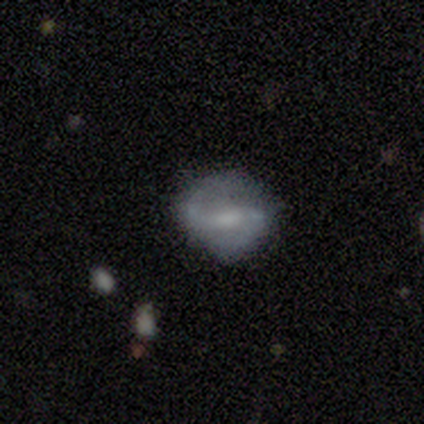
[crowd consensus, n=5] Volunteers were most divided on "bar" (2-way tie): strong: 50%, weak: 50%, no: 0%. More confident: edge-on disk — no (100%); spiral winding — medium (100%); spiral arm count — 2 (100%); merging — none (100%); smooth or featured — featured or disk (80%); spiral arms — yes (75%); bulge size — small (75%).